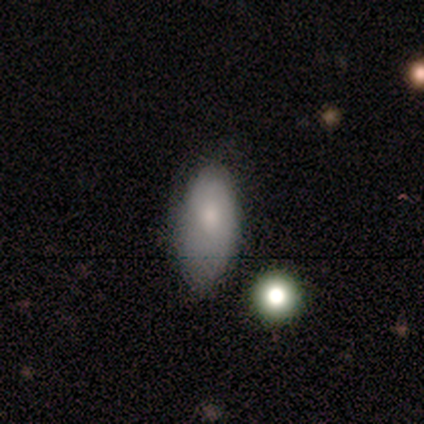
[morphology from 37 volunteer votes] Q: Smooth or featured?
A: smooth (59%); runner-up: featured or disk (35%)
Q: How rounded?
A: in between (86%); runner-up: round (9%)
Q: Merging?
A: none (49%); runner-up: minor disturbance (29%)